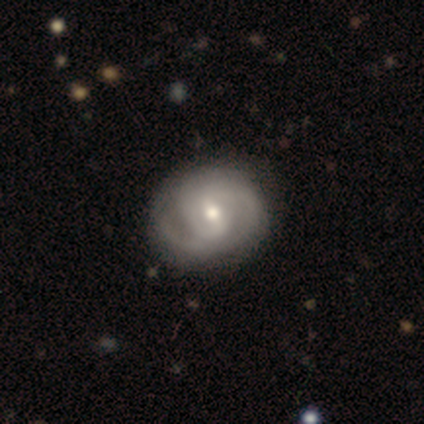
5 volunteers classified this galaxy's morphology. This is clearly a featured or disk galaxy (80%). It is clearly not viewed edge-on (100%). Bar: likely weak (75%). Spiral arm pattern: likely yes (75%). Spiral arm count: clearly 2 (100%). Spiral winding: likely tight (67%). Central bulge: possibly moderate (50%, tied with small). Merging: likely none (75%).